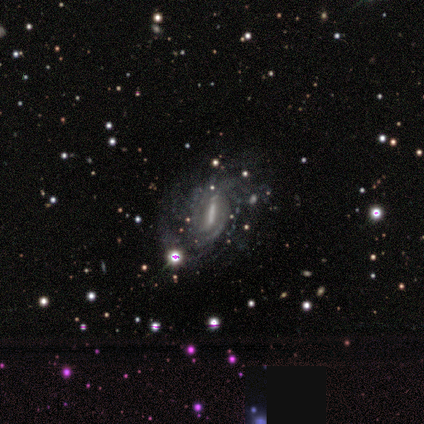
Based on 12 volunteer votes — A featured or disk galaxy (92%) with a strong bar (55%), loose (56%) spiral arms (82%) and a moderate central bulge (45%). Merging: minor disturbance (45%).